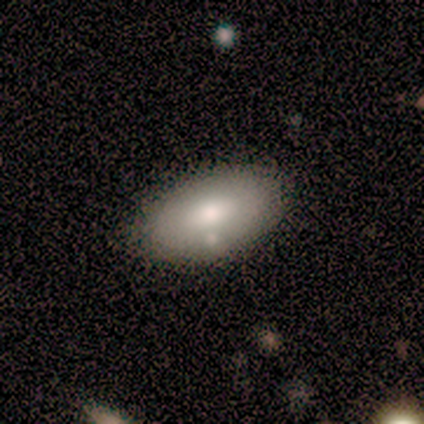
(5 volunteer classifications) This appears to be a smooth galaxy with no disk features (100%) that is in between round and cigar-shaped (100%). Merging: none (100%).